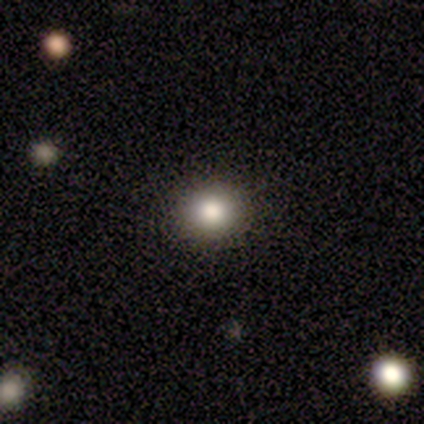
Volunteers were most divided on "smooth or featured": smooth: 72%, star or artifact: 20%, featured or disk: 8%. More confident: merging — none (88%); how rounded — round (79%).